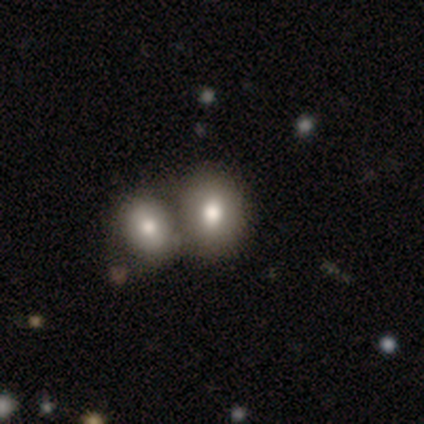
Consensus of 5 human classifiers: Volunteers were most divided on "how rounded": in between: 60%, round: 40%, cigar-shaped: 0%. More confident: smooth or featured — smooth (100%); merging — merger (60%).